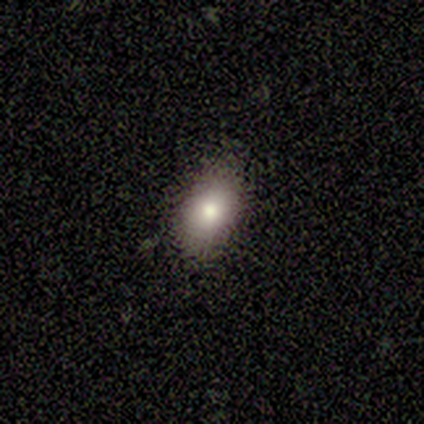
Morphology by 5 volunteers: A smooth galaxy with no disk features (60%) that is in between round and cigar-shaped (100%).

Vote fractions:
- Smooth or featured? smooth: 60% / featured or disk: 40% / star or artifact: 0%
- How rounded? in between: 100% / round: 0% / cigar-shaped: 0%
- Merging? none: 100% / minor disturbance: 0% / major disturbance: 0% / merger: 0%